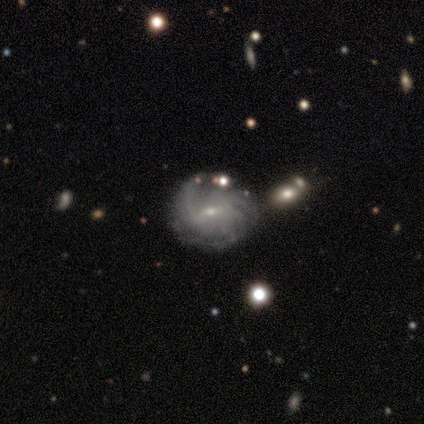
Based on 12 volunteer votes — Volunteers were most divided on "spiral arm count" (2-way tie): more than 4: 25%, can't tell: 25%, 1: 12%, 2: 12%, 3: 12%, 4: 12%. More confident: edge-on disk — no (100%); spiral arms — yes (100%); bulge size — small (100%); bar — weak (75%); smooth or featured — featured or disk (67%); merging — none (67%); spiral winding — medium (50%).